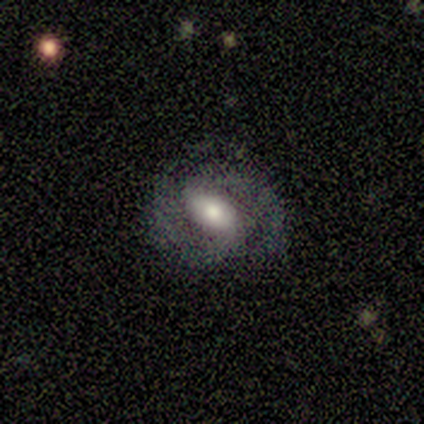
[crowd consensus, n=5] smooth-or-featured: featured or disk: 80% | smooth: 20% | star or artifact: 0%
  disk-edge-on: no: 100% | yes: 0%
    bar: strong: 50% (tied) | no: 50% (tied) | weak: 0%
    has-spiral-arms: yes: 100% | no: 0%
      spiral-winding: tight: 50% (tied) | medium: 50% (tied) | loose: 0%
      spiral-arm-count: 2: 100% | 1: 0% | 3: 0% | 4: 0% | more than 4: 0% | can't tell: 0%
    bulge-size: large: 50% (tied) | moderate: 50% (tied) | dominant: 0% | small: 0% | none: 0%
  merging: none: 60% | minor disturbance: 20% | major disturbance: 20% | merger: 0%